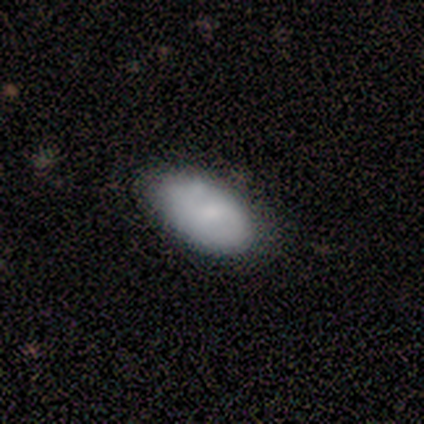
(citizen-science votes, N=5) Overall: featured or disk (60%; smooth 40%). Edge-on disk: no (100%). Bar: strong (33%, tied with weak and no). Spiral arms: yes (67%; no 33%). Spiral arm count: 2 (100%). Spiral winding: tight (50%, tied with medium). Bulge size: small (67%; none 33%). Merging: none (60%; merger 40%).